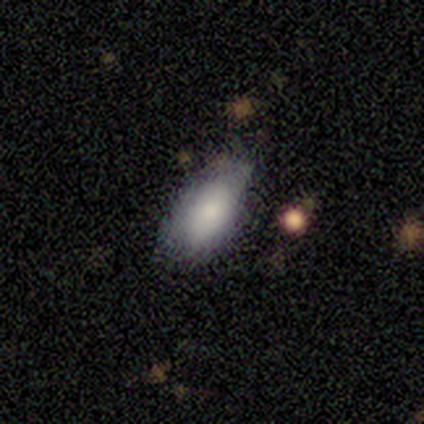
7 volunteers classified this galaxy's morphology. Smooth or featured? smooth (71%)
How rounded? in between (100%)
Merging? minor disturbance (57%)